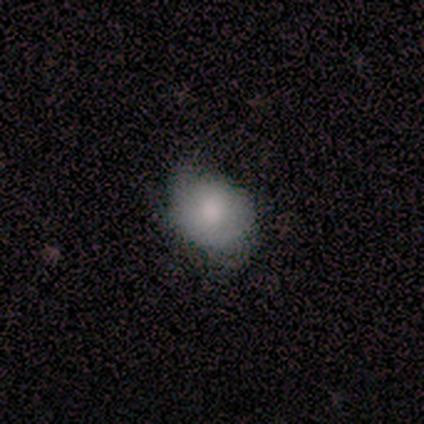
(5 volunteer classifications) Smooth or featured? 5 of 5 (100%) said smooth. How rounded? 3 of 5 (60%) said round. Merging? 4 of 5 (80%) said none.